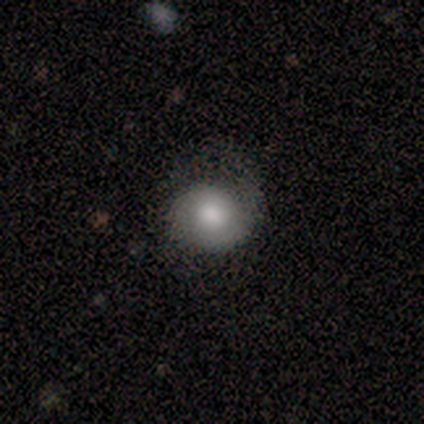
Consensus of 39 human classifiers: Overall: smooth (56%; featured or disk 36%). How rounded: round (95%). Merging: none (72%).